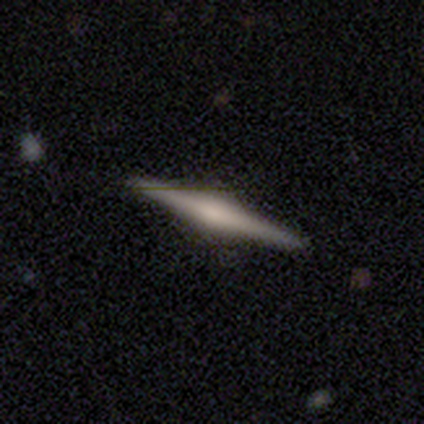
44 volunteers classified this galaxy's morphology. Volunteers were most divided on "smooth or featured": featured or disk: 86%, smooth: 14%, star or artifact: 0%. More confident: edge-on disk — yes (97%); edge-on bulge — rounded (86%); merging — none (86%).